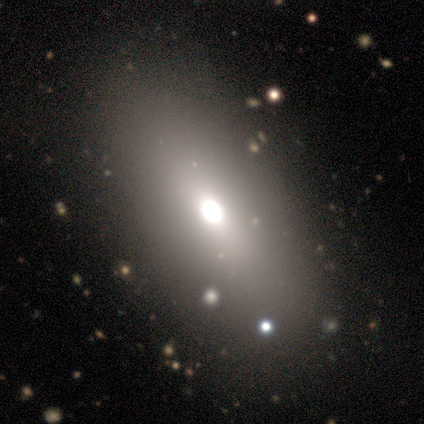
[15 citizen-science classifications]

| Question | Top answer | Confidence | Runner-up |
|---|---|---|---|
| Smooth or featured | smooth | 67% | featured or disk (27%) |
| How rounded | in between | 90% | round (10%) |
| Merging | none | 86% | minor disturbance (7%) |